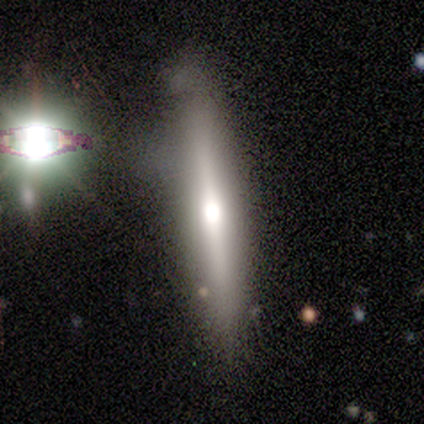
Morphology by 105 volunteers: type=featured or disk (68%); edge-on=yes (90%); edge-on bulge=rounded (81%); merging=none (61%).